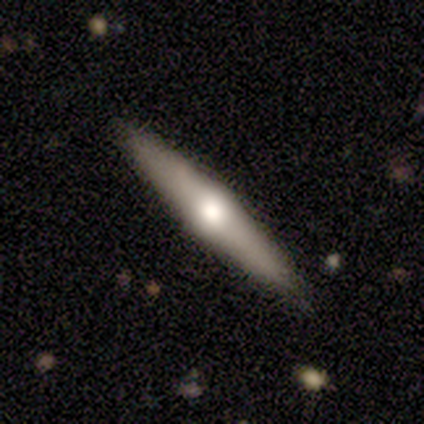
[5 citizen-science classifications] A featured or disk galaxy (60%) viewed edge-on (100%) with a rounded central bulge (100%). Merging: none (50%, tied with minor disturbance).